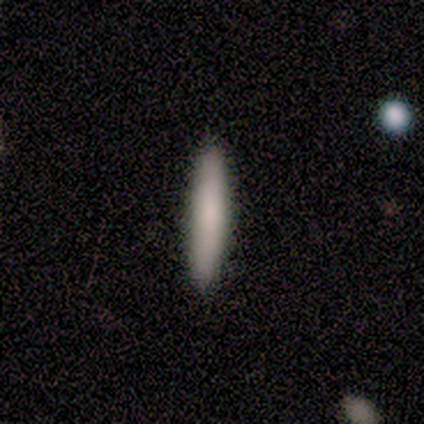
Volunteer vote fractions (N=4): A smooth galaxy with no disk features (75%) that is cigar-shaped (100%). Merging: none (100%).